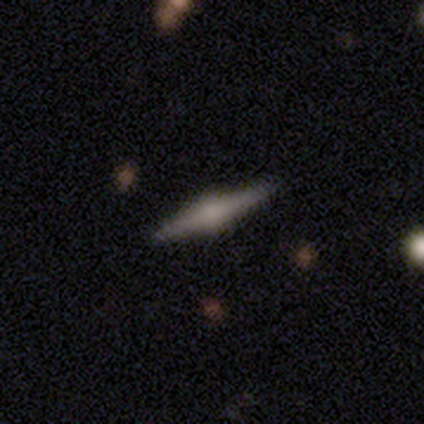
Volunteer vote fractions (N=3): smooth_or_featured: featured or disk (p=1.00)
disk_edge_on: yes (p=1.00)
edge_on_bulge: rounded (p=0.67) [alt: boxy p=0.33]
merging: none (p=1.00)